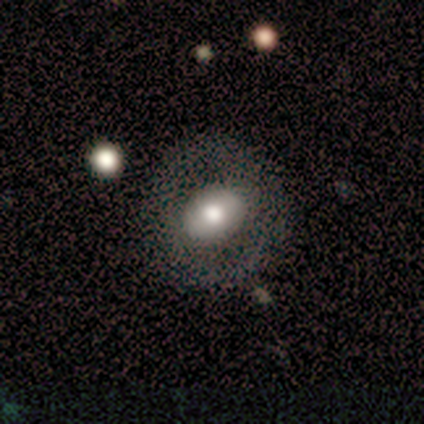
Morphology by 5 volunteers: Volunteers were most divided on "bar" (2-way tie): strong: 50%, no: 50%, weak: 0%; "spiral arms" (2-way tie): yes: 50%, no: 50%; "bulge size" (2-way tie): moderate: 50%, small: 50%, dominant: 0%, large: 0%, none: 0%. More confident: spiral winding — loose (100%); spiral arm count — 2 (100%); merging — none (80%); edge-on disk — no (67%); smooth or featured — featured or disk (60%).